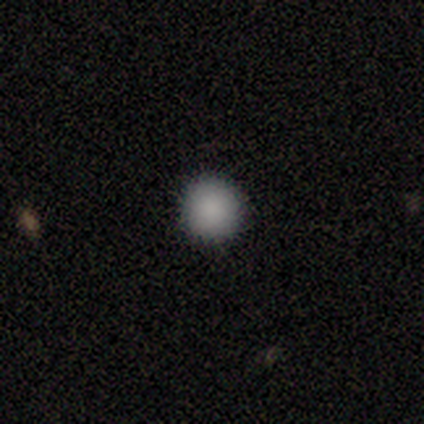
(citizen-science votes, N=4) This appears to be a smooth galaxy with no disk features (100%) that is round (75%). Merging: none (100%).